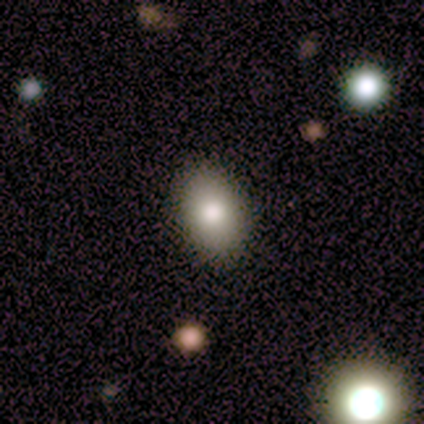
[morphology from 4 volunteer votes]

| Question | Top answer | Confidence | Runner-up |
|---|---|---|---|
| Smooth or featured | smooth | 100% | — |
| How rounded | in between | 100% | — |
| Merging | none | 75% | minor disturbance (25%) |